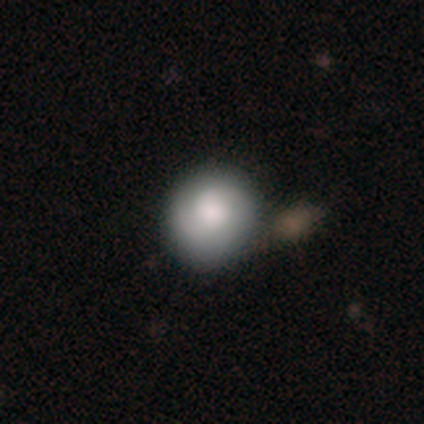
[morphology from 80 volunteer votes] Overall: smooth (66%; featured or disk 30%). How rounded: round (94%). Merging: none (36%; merger 10%).